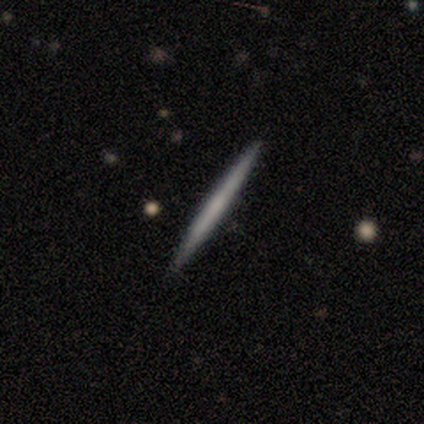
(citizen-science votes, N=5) Smooth or featured: smooth — 80% (featured or disk — 20%)
How rounded: cigar-shaped — 100%
Merging: none — 100%